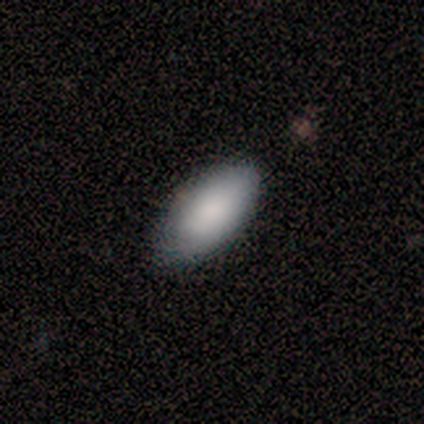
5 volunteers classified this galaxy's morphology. This appears to be a smooth galaxy with no disk features (100%) that is in between round and cigar-shaped (100%). Merging: none (60%).